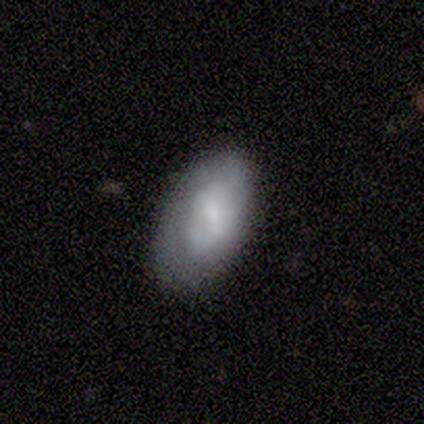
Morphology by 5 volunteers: A featured or disk galaxy (60%) with a strong bar (33%, tied with weak and no), no spiral arms (100%) and a small central bulge (67%). Merging: none (40%, tied with minor disturbance).